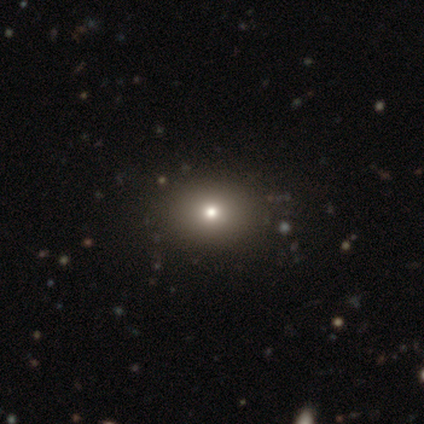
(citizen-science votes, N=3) smooth-or-featured: star or artifact: 67% | smooth: 33% | featured or disk: 0%